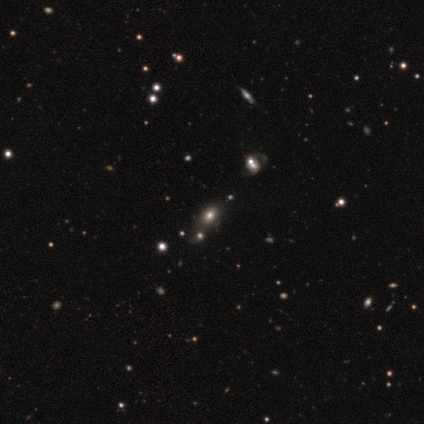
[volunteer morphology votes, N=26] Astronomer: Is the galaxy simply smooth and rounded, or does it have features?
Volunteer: smooth — 46% (runner-up: star or artifact, 42%).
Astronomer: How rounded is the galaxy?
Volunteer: in between — 75%.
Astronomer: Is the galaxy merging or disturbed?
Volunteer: none — 40%, tied with merger at 40%.